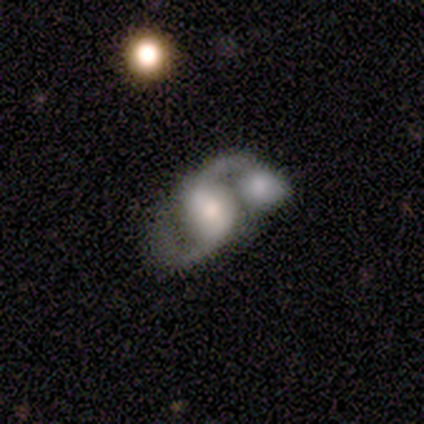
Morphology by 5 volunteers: A featured or disk galaxy (80%) with a weak bar (75%), 2 (100%) loose (75%) spiral arms (100%) and a moderate central bulge (75%). Merging: merger (100%).